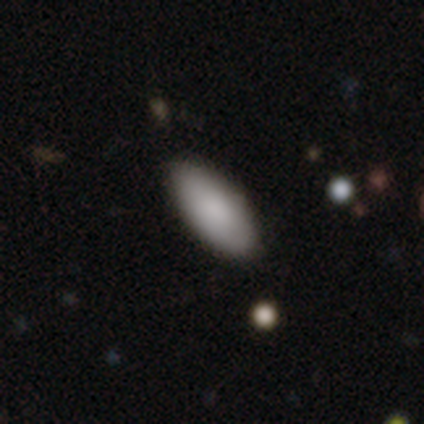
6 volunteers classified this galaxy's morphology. Smooth or featured? 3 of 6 (50%) said smooth. How rounded? 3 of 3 (100%) said in between. Merging? 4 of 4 (100%) said none.